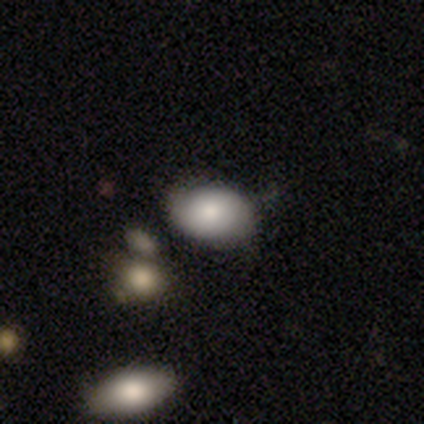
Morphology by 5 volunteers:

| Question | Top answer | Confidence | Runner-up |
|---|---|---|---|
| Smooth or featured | smooth | 100% | — |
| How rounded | in between | 80% | round (20%) |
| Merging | none | 80% | minor disturbance (20%) |